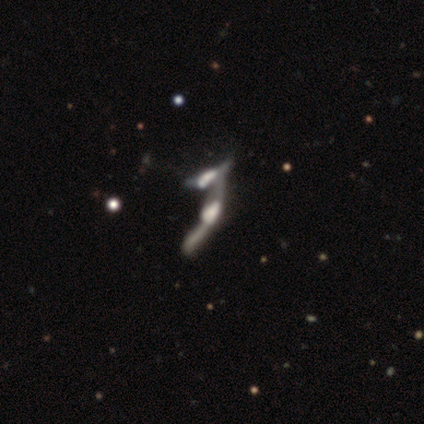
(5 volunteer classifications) A featured or disk galaxy (60%) with no bar (100%), no spiral arms (100%) and a dominant central bulge (33%, tied with large and moderate).

Vote fractions:
- Smooth or featured? featured or disk: 60% / star or artifact: 40% / smooth: 0%
- Edge-on disk? no: 100% / yes: 0%
- Bar? no: 100% / strong: 0% / weak: 0%
- Spiral arms? no: 100% / yes: 0%
- Bulge size? dominant: 33% (tied) / large: 33% (tied) / moderate: 33% (tied) / small: 0% / none: 0%
- Merging? merger: 67% / major disturbance: 33% / none: 0% / minor disturbance: 0%